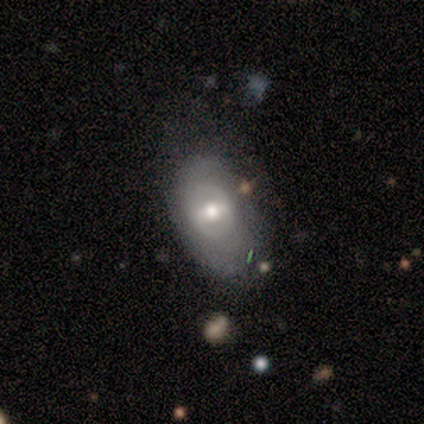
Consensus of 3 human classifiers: Smooth or featured? smooth (67%)
How rounded? in between (100%)
Merging? none (67%)